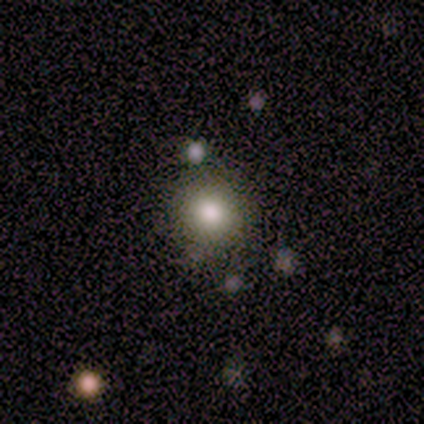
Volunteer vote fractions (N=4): A smooth galaxy with no disk features (100%) that is round (100%). Merging: none (100%).